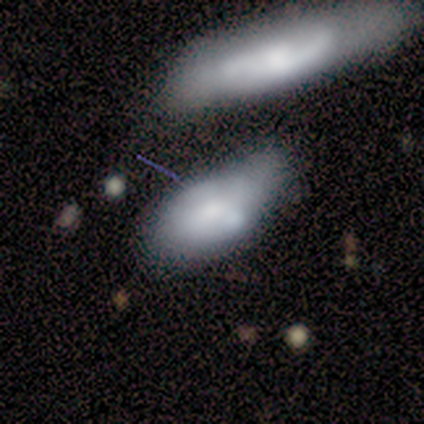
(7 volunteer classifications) A smooth galaxy with no disk features (57%) that is in between round and cigar-shaped (100%). Merging: none (29%, tied with minor disturbance and major disturbance).